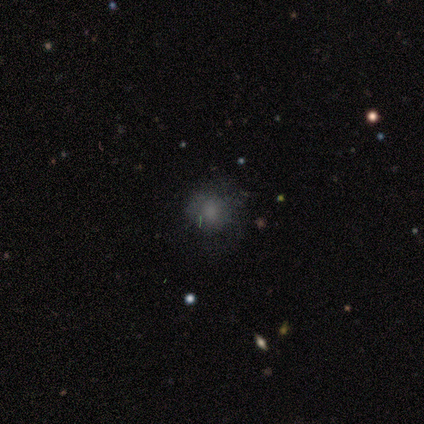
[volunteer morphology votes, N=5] smooth-or-featured: smooth: 60% | featured or disk: 20% | star or artifact: 20%
  how-rounded: round: 100% | in between: 0% | cigar-shaped: 0%
  merging: none: 50% | minor disturbance: 25% | major disturbance: 25% | merger: 0%